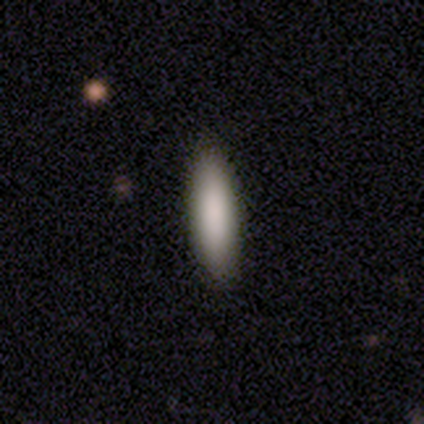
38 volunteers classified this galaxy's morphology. A smooth galaxy with no disk features (89%) that is cigar-shaped (50%).

Vote fractions:
- Smooth or featured? smooth: 89% / featured or disk: 5% / star or artifact: 5%
- How rounded? cigar-shaped: 50% / in between: 47% / round: 3%
- Merging? none: 100% / minor disturbance: 0% / major disturbance: 0% / merger: 0%